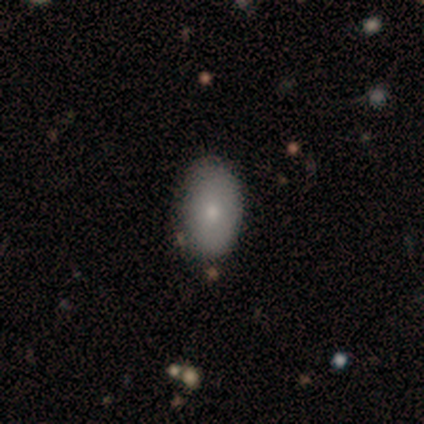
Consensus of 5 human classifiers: Smooth or featured?
  - smooth: 100% *
  - featured or disk: 0%
  - star or artifact: 0%
How rounded?
  - in between: 100% *
  - round: 0%
  - cigar-shaped: 0%
Merging?
  - none: 60% *
  - minor disturbance: 40%
  - major disturbance: 0%
  - merger: 0%